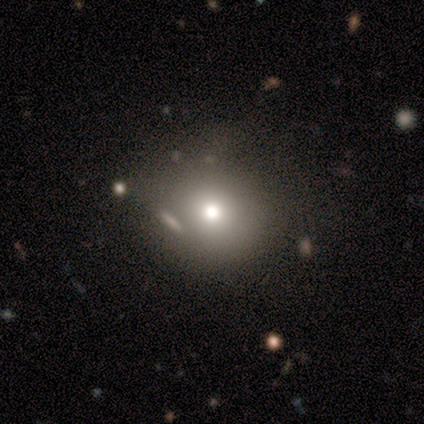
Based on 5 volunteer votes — Smooth or featured? 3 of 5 (60%) said smooth. How rounded? 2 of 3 (67%) said round. Merging? 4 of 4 (100%) said none.